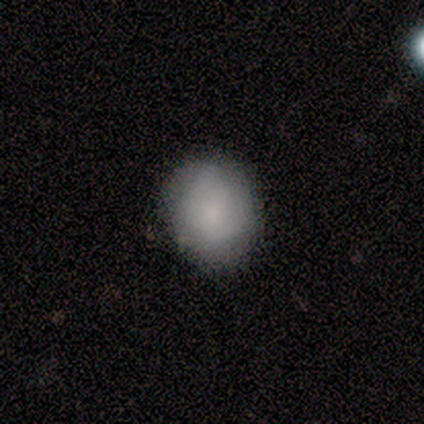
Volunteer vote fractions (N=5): Morphology: type=smooth (100%); roundness=round (60%); merging=none (100%).